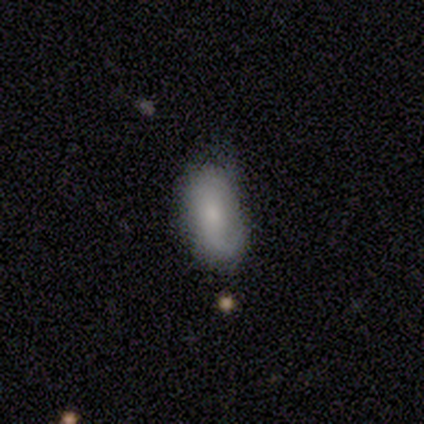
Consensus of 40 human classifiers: Volunteers were most divided on "merging": none: 55%, minor disturbance: 39%, major disturbance: 5%, merger: 0%. More confident: how rounded — in between (92%); smooth or featured — smooth (65%).